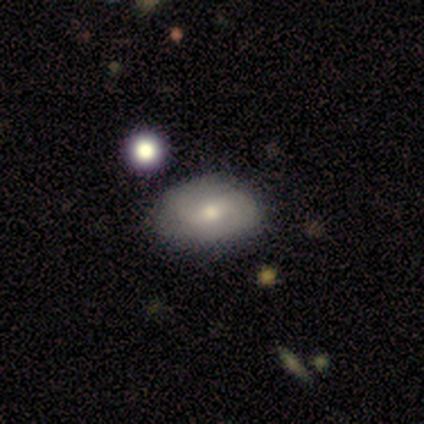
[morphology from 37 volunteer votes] Volunteers were most divided on "bar": weak: 50%, no: 39%, strong: 11%. Remaining: edge-on disk — no (95%); spiral arms — yes (89%); bulge size — moderate (83%); merging — none (82%); spiral arm count — 2 (81%); smooth or featured — featured or disk (51%); spiral winding — medium (44%).